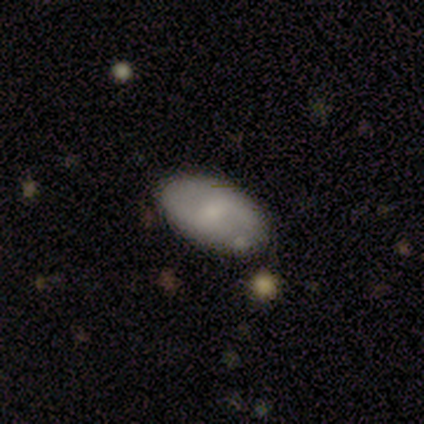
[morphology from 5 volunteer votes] A featured or disk galaxy (60%) with a strong bar (67%), 2 (100%) loose (67%) spiral arms (100%) and a small central bulge (67%).

Vote fractions:
- Smooth or featured? featured or disk: 60% / smooth: 20% / star or artifact: 20%
- Edge-on disk? no: 100% / yes: 0%
- Bar? strong: 67% / weak: 33% / no: 0%
- Spiral arms? yes: 100% / no: 0%
- Spiral winding? loose: 67% / tight: 33% / medium: 0%
- Spiral arm count? 2: 100% / 1: 0% / 3: 0% / 4: 0% / more than 4: 0% / can't tell: 0%
- Bulge size? small: 67% / none: 33% / dominant: 0% / large: 0% / moderate: 0%
- Merging? none: 100% / minor disturbance: 0% / major disturbance: 0% / merger: 0%